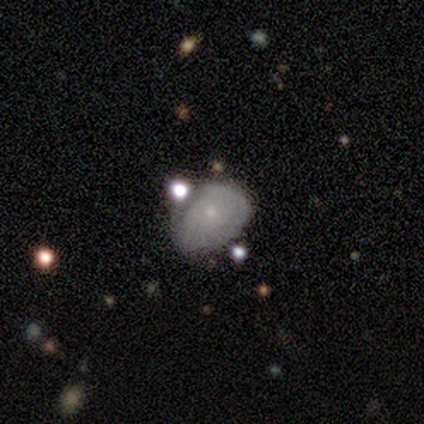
featured or disk 60%, smooth 40%, star or artifact 0%. Down the decision tree: edge-on disk — no (67%); bar — no (100%); spiral arms — no (100%); bulge size — small (100%); merging — minor disturbance (80%).